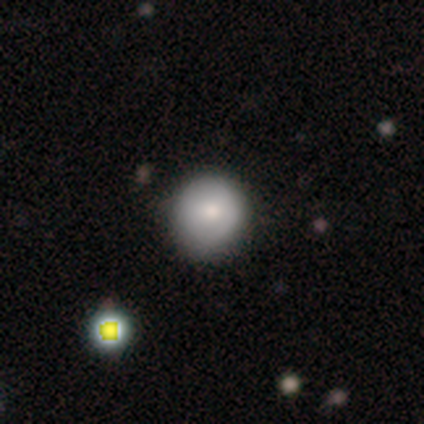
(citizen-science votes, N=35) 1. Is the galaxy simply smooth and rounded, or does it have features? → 83% smooth, 14% featured or disk, 3% star or artifact.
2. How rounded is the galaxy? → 97% round, 3% in between, 0% cigar-shaped.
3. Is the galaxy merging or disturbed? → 88% none, 12% minor disturbance, 0% major disturbance, 0% merger.